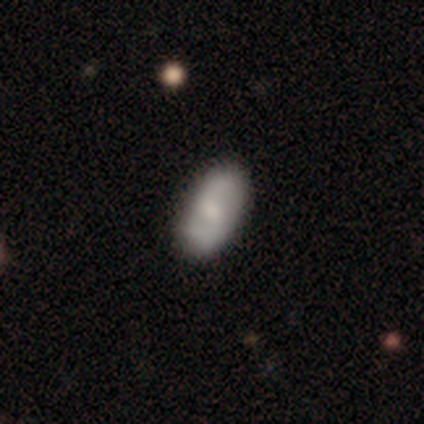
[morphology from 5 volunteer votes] Volunteers were most divided on "merging": none: 60%, minor disturbance: 40%, major disturbance: 0%, merger: 0%. More confident: smooth or featured — smooth (80%); how rounded — in between (75%).